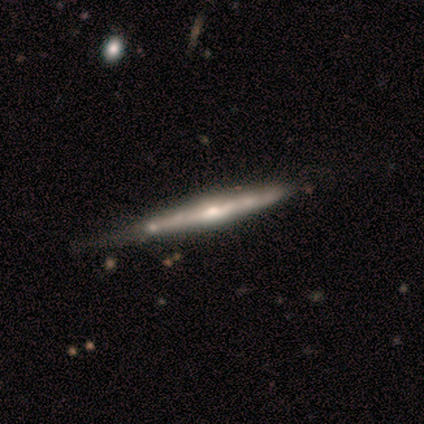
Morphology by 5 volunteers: smooth-or-featured: featured or disk: 100% | smooth: 0% | star or artifact: 0%
  disk-edge-on: yes: 100% | no: 0%
    edge-on-bulge: rounded: 80% | none: 20% | boxy: 0%
  merging: minor disturbance: 80% | none: 20% | major disturbance: 0% | merger: 0%